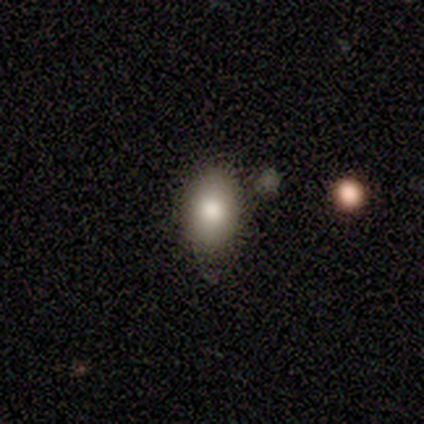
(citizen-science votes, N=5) A smooth galaxy with no disk features (40%, tied with featured or disk) that is in between round and cigar-shaped (100%). Merging: none (75%).